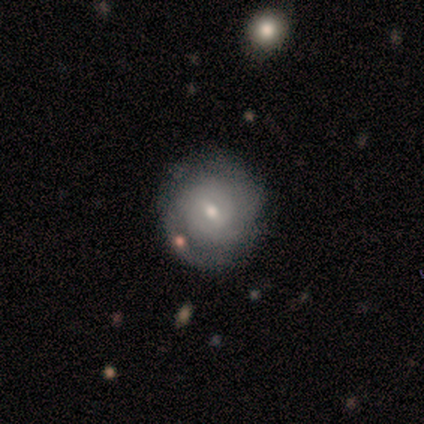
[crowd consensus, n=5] featured or disk 60%, smooth 40%, star or artifact 0%. Down the decision tree: edge-on disk — no (100%); bar — weak (67%); spiral arms — yes (67%); spiral arm count — can't tell (100%); spiral winding — tight (100%); bulge size — moderate (67%); merging — none (100%).